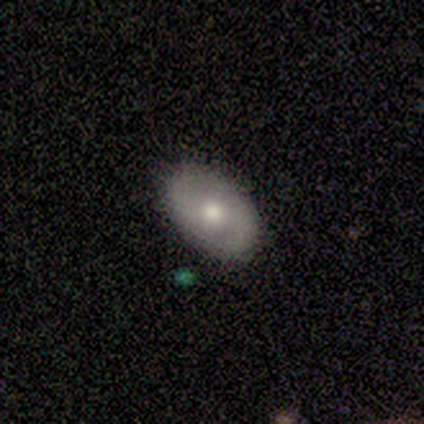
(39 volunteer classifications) Overall: featured or disk (54%; smooth 33%). Edge-on disk: no (95%). Bar: no (65%; weak 30%). Spiral arms: yes (75%). Spiral arm count: 2 (93%). Spiral winding: medium (53%; tight 33%). Bulge size: moderate (60%; small 25%). Merging: none (85%).